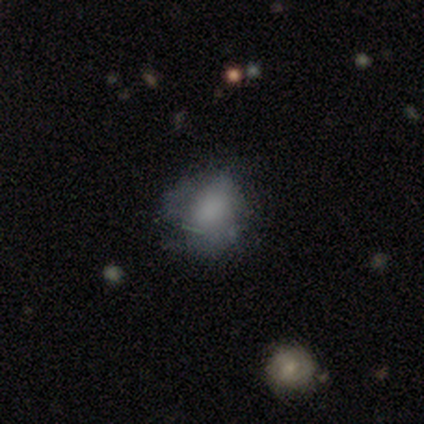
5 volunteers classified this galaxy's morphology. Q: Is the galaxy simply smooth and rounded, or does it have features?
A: smooth — 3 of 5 (60%).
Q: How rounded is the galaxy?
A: round — 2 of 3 (67%).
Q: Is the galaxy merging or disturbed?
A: none — 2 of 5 (40%, tied with major disturbance).